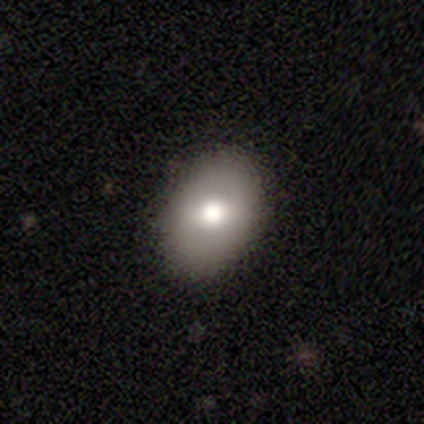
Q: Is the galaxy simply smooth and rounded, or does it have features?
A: smooth — 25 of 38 (66%).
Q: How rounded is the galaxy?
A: in between — 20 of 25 (80%).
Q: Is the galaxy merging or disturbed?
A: none — 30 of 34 (88%).